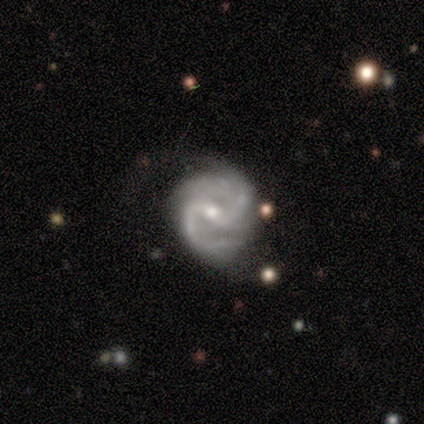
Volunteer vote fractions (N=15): Morphology: type=featured or disk (93%); edge-on=no (100%); bar=weak (79%); spiral arms=yes (100%); winding=medium (71%); arm count=2 (86%); bulge=moderate (57%); merging=none (73%).